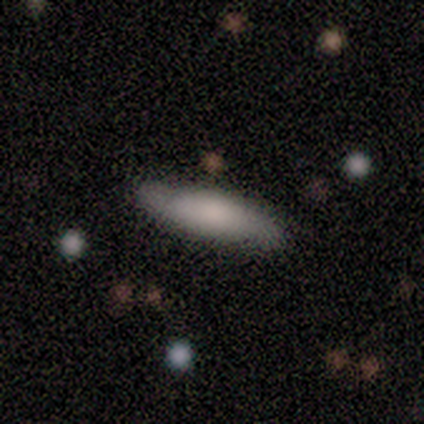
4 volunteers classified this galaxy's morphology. Smooth or featured: smooth — 75% (featured or disk — 25%)
How rounded: cigar-shaped — 67% (in between — 33%)
Merging: none — 100%